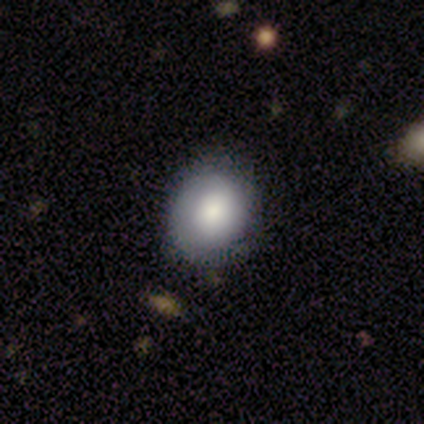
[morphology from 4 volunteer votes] smooth_or_featured: smooth (p=0.75) [alt: featured or disk p=0.25]
how_rounded: in between (p=0.67) [alt: round p=0.33]
merging: none (p=0.75) [alt: minor disturbance p=0.25]